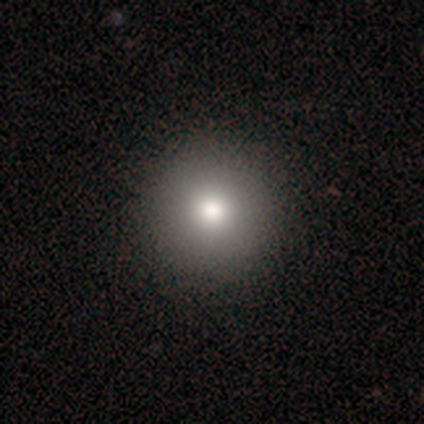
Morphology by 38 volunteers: smooth_or_featured: smooth (p=0.76) [alt: featured or disk p=0.16]
how_rounded: round (p=1.00)
merging: none (p=0.94) [alt: minor disturbance p=0.06]